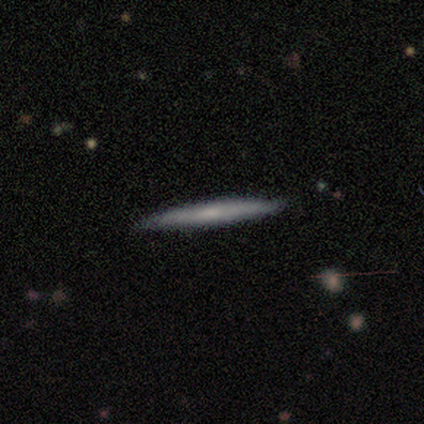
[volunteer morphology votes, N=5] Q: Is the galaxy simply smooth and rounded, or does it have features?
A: featured or disk — 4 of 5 (80%).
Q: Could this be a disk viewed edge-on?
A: yes — 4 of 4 (100%).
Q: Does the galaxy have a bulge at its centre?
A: none — 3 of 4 (75%).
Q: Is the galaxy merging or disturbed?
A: none — 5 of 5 (100%).